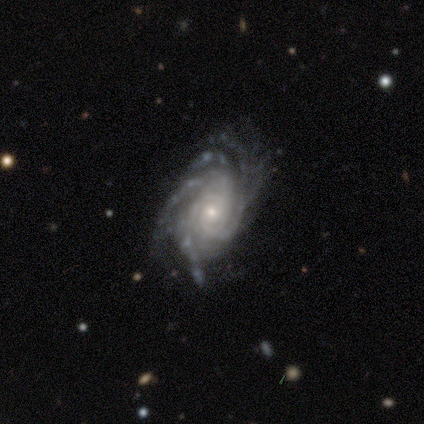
smooth_or_featured: featured or disk (p=0.95) [alt: smooth p=0.03]
disk_edge_on: no (p=0.97) [alt: yes p=0.03]
bar: no (p=0.75) [alt: weak p=0.24]
has_spiral_arms: yes (p=1.00)
spiral_winding: tight (p=0.81) [alt: medium p=0.18]
spiral_arm_count: more than 4 (p=0.33) [alt: can't tell p=0.32]
bulge_size: small (p=0.74) [alt: moderate p=0.22]
merging: none (p=0.29) [alt: minor disturbance p=0.12]